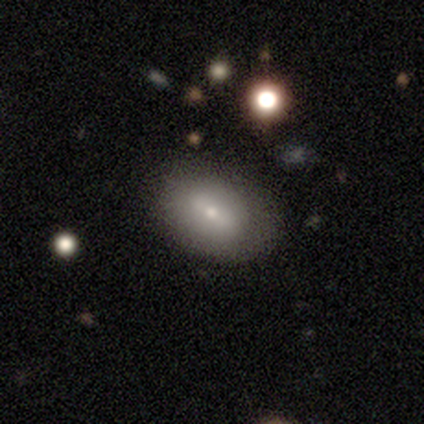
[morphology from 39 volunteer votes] This is possibly a smooth galaxy (49%). How rounded: clearly in between (95%). Merging: likely none (72%).